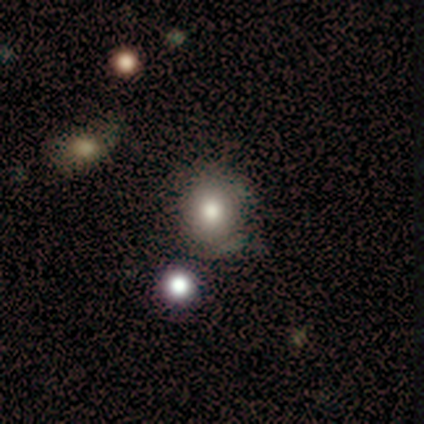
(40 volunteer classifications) A smooth galaxy with no disk features (80%) that is round (84%). Merging: none (83%).